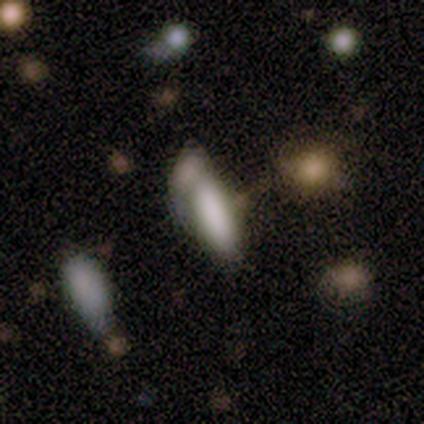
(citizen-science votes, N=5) Q: Smooth or featured?
A: smooth (80%); runner-up: featured or disk (20%)
Q: How rounded?
A: in between (75%); runner-up: cigar-shaped (25%)
Q: Merging?
A: merger (40%); runner-up: none (20%)